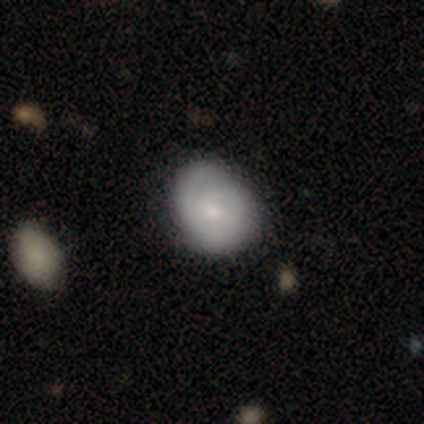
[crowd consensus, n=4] A smooth galaxy with no disk features (50%, tied with featured or disk) that is round (50%, tied with in between). Merging: none (75%).